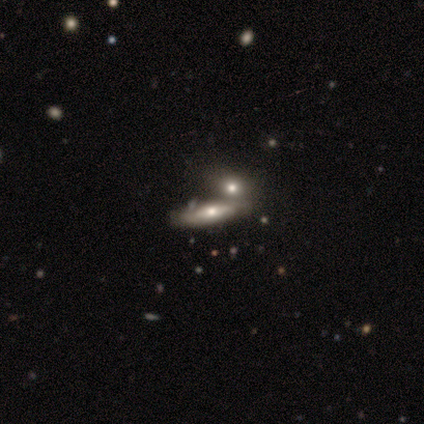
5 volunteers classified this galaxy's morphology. Volunteers were most divided on "bar": no: 67%, weak: 33%, strong: 0%. More confident: edge-on disk — no (100%); spiral winding — tight (100%); spiral arm count — can't tell (100%); merging — merger (75%); spiral arms — yes (67%); bulge size — small (67%); smooth or featured — featured or disk (60%).